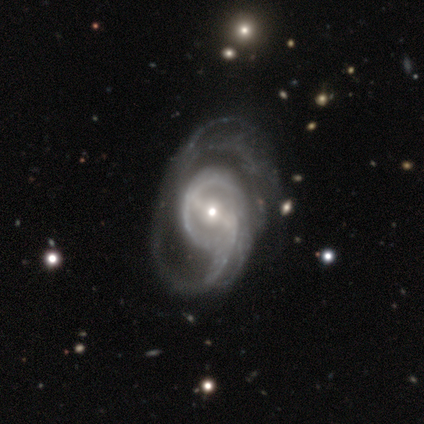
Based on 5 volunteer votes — This is clearly a featured or disk galaxy (100%). It is clearly not viewed edge-on (100%). Bar: clearly strong (80%). Spiral arm pattern: clearly yes (80%). Spiral arm count: possibly 2 (50%). Spiral winding: likely tight (75%). Central bulge: clearly small (80%). Merging: likely major disturbance (60%).